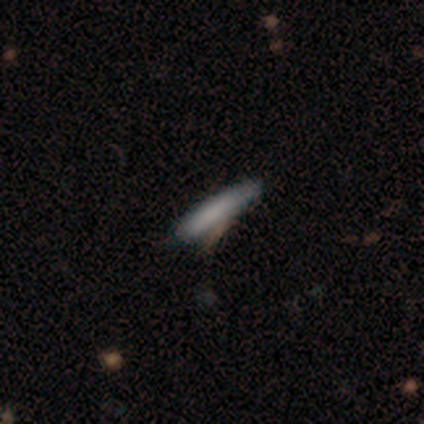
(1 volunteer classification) Smooth or featured: smooth — 100%
How rounded: cigar-shaped — 100%
Merging: none — 100%